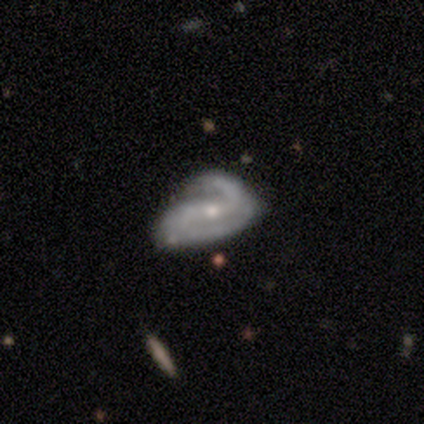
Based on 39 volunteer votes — This appears to be a featured or disk galaxy (85%) with a weak bar (41%), 2 (89%) medium (54%) spiral arms (88%) and a small central bulge (62%). Merging: major disturbance (31%).